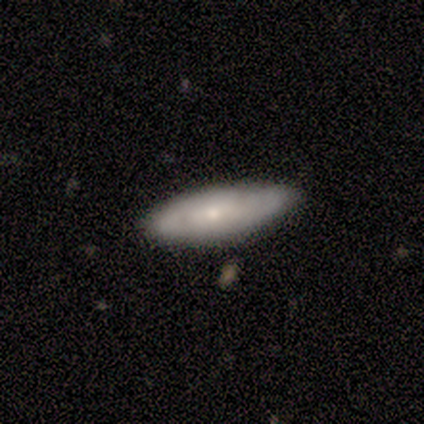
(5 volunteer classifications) Morphology: type=smooth (80%); roundness=in between (100%); merging=none (60%).